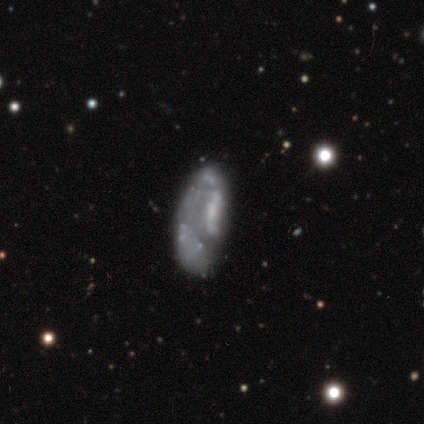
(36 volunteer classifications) This is likely a featured or disk galaxy (67%). It is clearly not viewed edge-on (96%). Bar: clearly no (83%). Spiral arm pattern: likely no (78%). Central bulge: clearly none (87%). Merging: possibly none (51%).